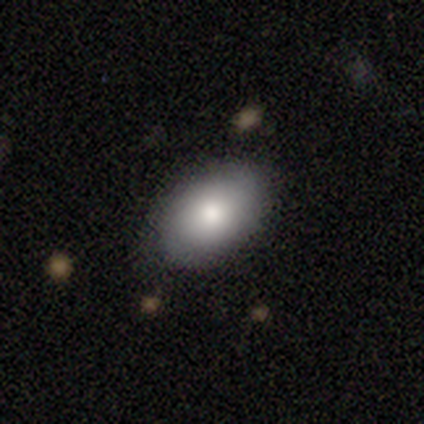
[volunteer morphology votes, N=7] A smooth galaxy with no disk features (86%) that is in between round and cigar-shaped (67%).

Vote fractions:
- Smooth or featured? smooth: 86% / featured or disk: 14% / star or artifact: 0%
- How rounded? in between: 67% / round: 33% / cigar-shaped: 0%
- Merging? none: 71% / minor disturbance: 29% / major disturbance: 0% / merger: 0%